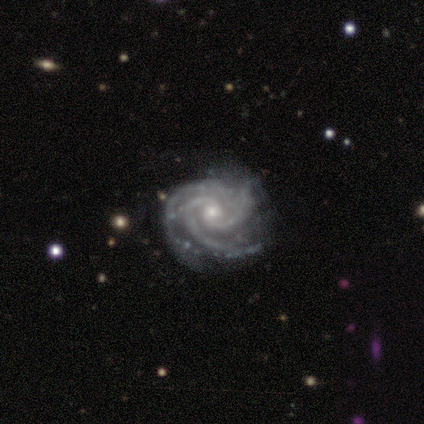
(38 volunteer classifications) featured or disk 95%, smooth 3%, star or artifact 3%. Down the decision tree: edge-on disk — no (100%); bar — no (64%); spiral arms — yes (100%); spiral arm count — 3 (61%); spiral winding — tight (75%); bulge size — small (69%); merging — none (65%).